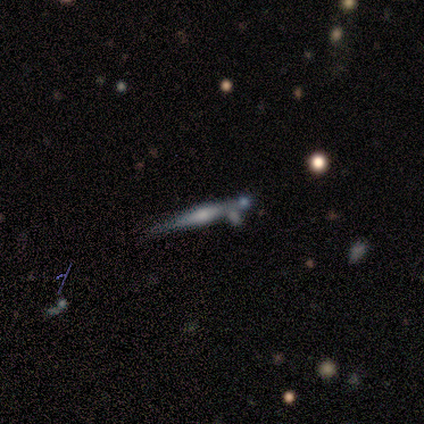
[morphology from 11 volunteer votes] featured or disk 82%, smooth 18%, star or artifact 0%. Down the decision tree: edge-on disk — yes (100%); edge-on bulge — rounded (89%); merging — none (82%).